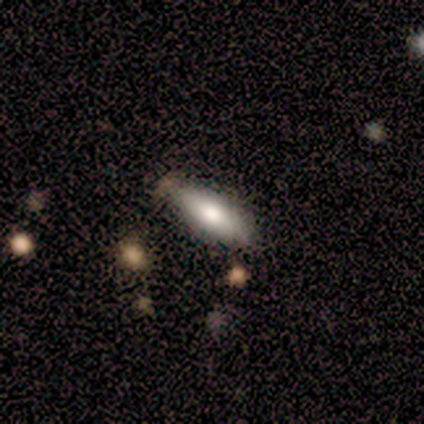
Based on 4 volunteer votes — This appears to be a smooth galaxy with no disk features (100%) that is in between round and cigar-shaped (100%). Merging: none (100%).